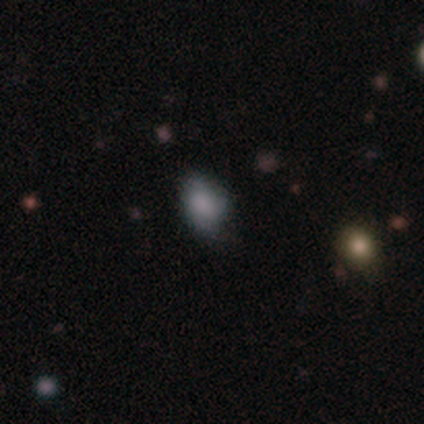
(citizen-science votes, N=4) smooth-or-featured: smooth: 100% | featured or disk: 0% | star or artifact: 0%
  how-rounded: in between: 100% | round: 0% | cigar-shaped: 0%
  merging: minor disturbance: 75% | none: 25% | major disturbance: 0% | merger: 0%